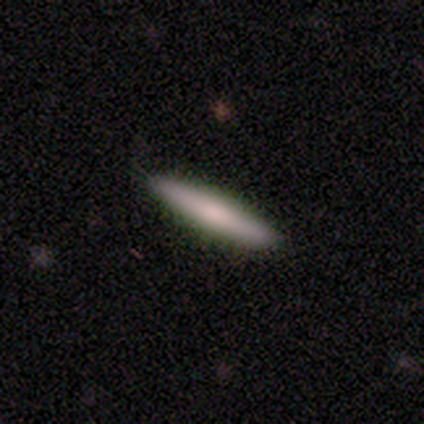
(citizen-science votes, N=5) Overall: smooth (80%). How rounded: cigar-shaped (100%). Merging: none (100%).